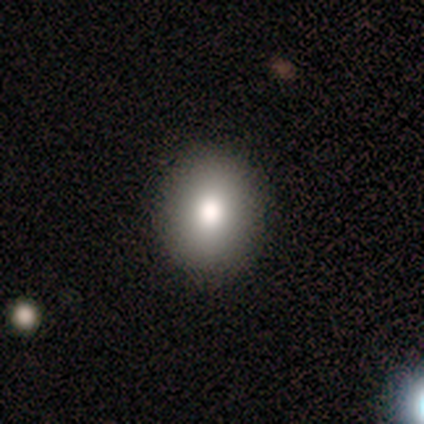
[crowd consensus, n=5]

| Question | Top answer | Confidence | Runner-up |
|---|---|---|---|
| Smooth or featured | smooth | 60% | featured or disk (40%) |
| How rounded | round | 100% | — |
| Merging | none | 100% | — |